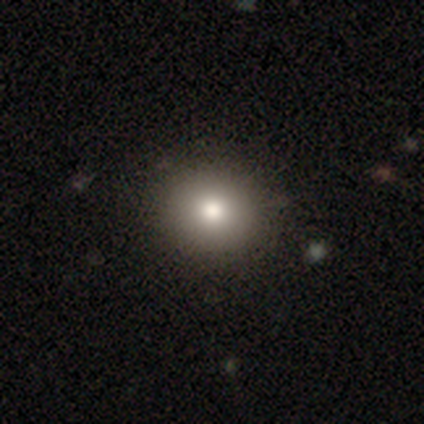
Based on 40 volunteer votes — Volunteers were most divided on "merging": none: 66%, minor disturbance: 0%, major disturbance: 0%, merger: 0%. More confident: how rounded — round (91%); smooth or featured — smooth (82%).